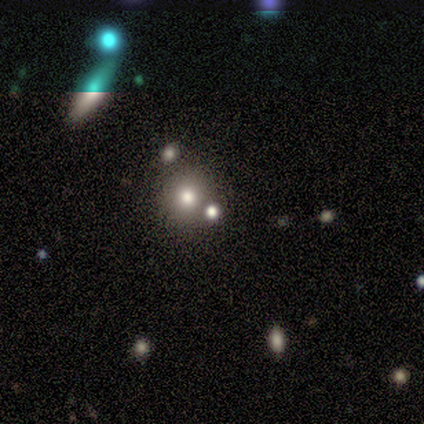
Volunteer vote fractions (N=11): Overall: smooth (73%). How rounded: round (100%). Merging: none (75%).